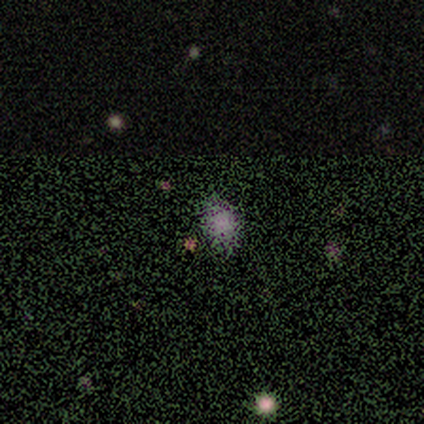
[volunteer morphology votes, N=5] Volunteers were most divided on "smooth or featured": star or artifact: 60%, smooth: 40%, featured or disk: 0%.